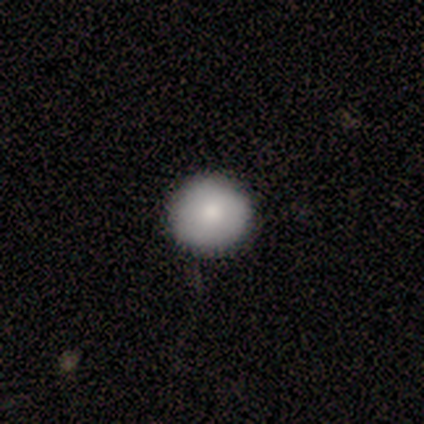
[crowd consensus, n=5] smooth-or-featured: smooth: 100% | featured or disk: 0% | star or artifact: 0%
  how-rounded: round: 100% | in between: 0% | cigar-shaped: 0%
  merging: none: 80% | minor disturbance: 20% | major disturbance: 0% | merger: 0%